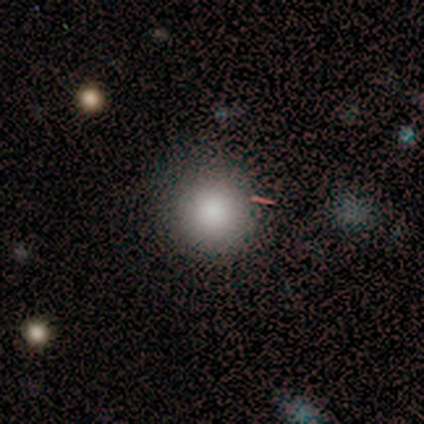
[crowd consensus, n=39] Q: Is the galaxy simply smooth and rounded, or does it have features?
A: smooth — 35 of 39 (90%).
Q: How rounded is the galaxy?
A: round — 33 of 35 (94%).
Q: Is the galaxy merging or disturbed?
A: none — 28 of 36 (78%).